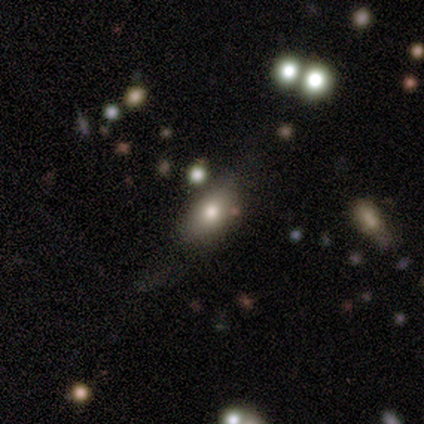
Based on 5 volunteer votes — Morphology: type=smooth (40%, tied with featured or disk); roundness=in between (100%); merging=minor disturbance (50%).